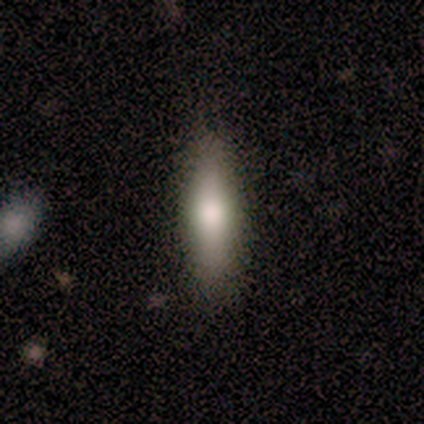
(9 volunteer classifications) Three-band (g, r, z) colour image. It shows a smooth galaxy with no disk features (78%) that is cigar-shaped (57%). Merging: none (89%).